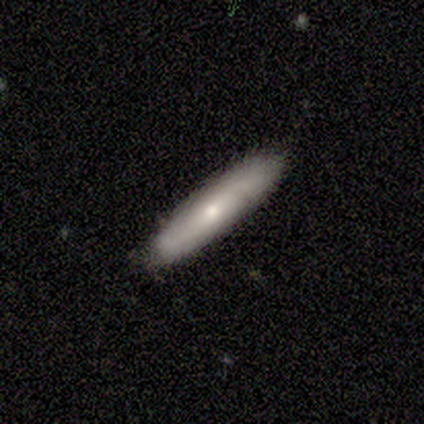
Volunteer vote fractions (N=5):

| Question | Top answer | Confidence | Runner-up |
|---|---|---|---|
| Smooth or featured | smooth | 60% | featured or disk (40%) |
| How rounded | cigar-shaped | 100% | — |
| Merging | none | 100% | — |